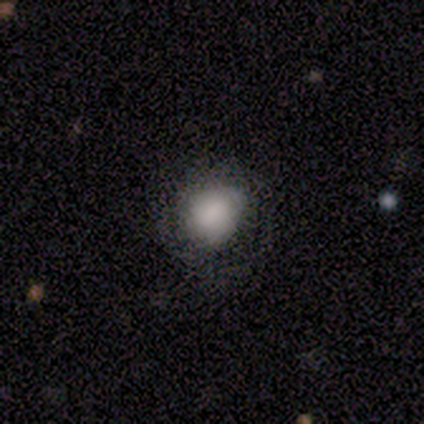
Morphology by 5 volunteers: Volunteers were most divided on "how rounded" (2-way tie): round: 50%, in between: 50%, cigar-shaped: 0%. More confident: smooth or featured — smooth (80%); merging — none (80%).